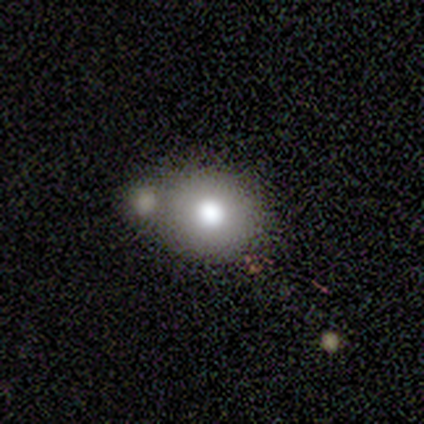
Smooth or featured: smooth — 75% (featured or disk — 20%)
How rounded: round — 77% (in between — 23%)
Merging: merger — 47% (none — 37%)